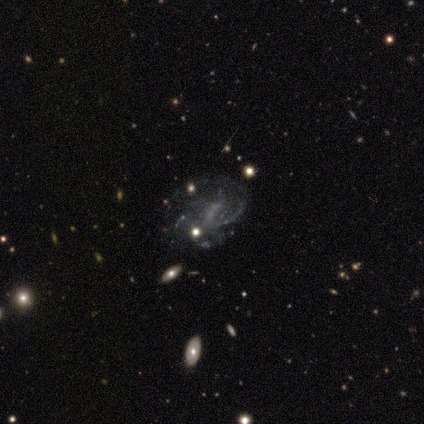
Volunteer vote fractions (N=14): Smooth or featured?
  - featured or disk: 100% *
  - smooth: 0%
  - star or artifact: 0%
Edge-on disk?
  - no: 100% *
  - yes: 0%
Bar?
  - weak: 71% *
  - strong: 14%
  - no: 14%
Spiral arms?
  - yes: 71% *
  - no: 29%
Spiral winding?
  - medium: 60% *
  - tight: 20%
  - loose: 20%
Spiral arm count?
  - 2: 40% *
  - 1: 30%
  - 3: 10%
  - 4: 10%
  - can't tell: 10%
  - more than 4: 0%
Bulge size?
  - none: 50% *
  - small: 29%
  - moderate: 21%
  - dominant: 0%
  - large: 0%
Merging?
  - none: 57% *
  - major disturbance: 21%
  - minor disturbance: 14%
  - merger: 7%